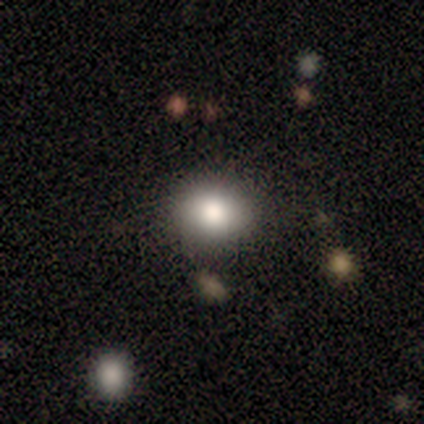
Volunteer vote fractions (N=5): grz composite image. It shows a smooth galaxy with no disk features (100%) that is in between round and cigar-shaped (60%). Merging: none (80%).